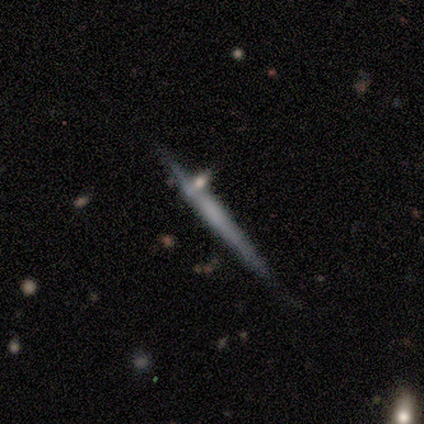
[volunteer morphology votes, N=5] Smooth or featured?
  - featured or disk: 60% *
  - smooth: 20%
  - star or artifact: 20%
Edge-on disk?
  - yes: 100% *
  - no: 0%
Edge-on bulge?
  - boxy: 33% * (tied)
  - none: 33% * (tied)
  - rounded: 33% * (tied)
Merging?
  - none: 75% *
  - major disturbance: 25%
  - minor disturbance: 0%
  - merger: 0%